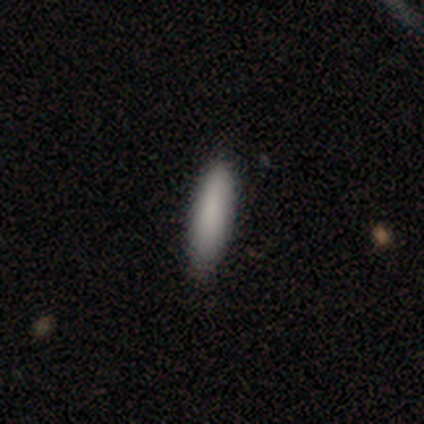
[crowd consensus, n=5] This appears to be a smooth galaxy with no disk features (100%) that is in between round and cigar-shaped (60%). Merging: none (100%).